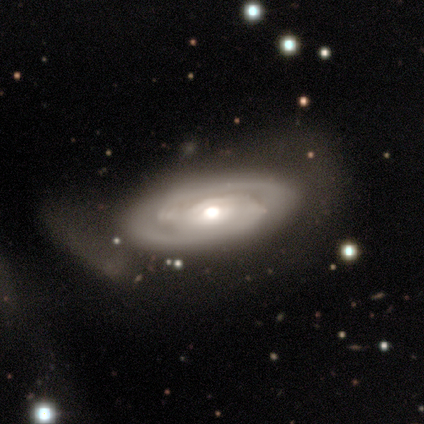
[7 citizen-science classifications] Smooth or featured? 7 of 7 (100%) said featured or disk. Edge-on disk? 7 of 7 (100%) said no. Bar? 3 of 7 (43%) said strong. Spiral arms? 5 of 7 (71%) said yes. Spiral winding? 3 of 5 (60%) said tight. Spiral arm count? 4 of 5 (80%) said 2. Bulge size? 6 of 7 (86%) said moderate. Merging? 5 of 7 (71%) said minor disturbance.